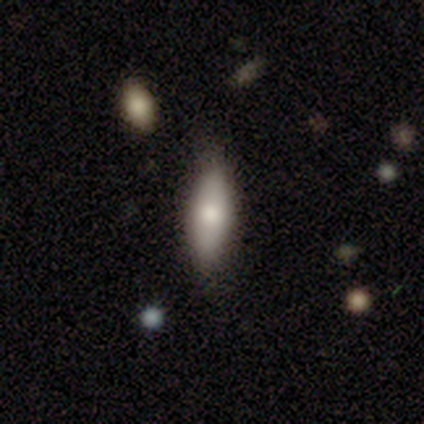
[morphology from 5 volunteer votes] A smooth galaxy with no disk features (100%) that is in between round and cigar-shaped (60%). Merging: none (80%).